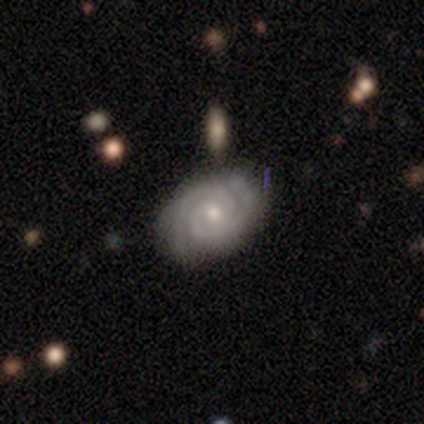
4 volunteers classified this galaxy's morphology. smooth-or-featured: featured or disk: 100% | smooth: 0% | star or artifact: 0%
  disk-edge-on: no: 100% | yes: 0%
    bar: no: 75% | weak: 25% | strong: 0%
    has-spiral-arms: yes: 100% | no: 0%
      spiral-winding: tight: 75% | medium: 25% | loose: 0%
      spiral-arm-count: 2: 100% | 1: 0% | 3: 0% | 4: 0% | more than 4: 0% | can't tell: 0%
    bulge-size: moderate: 75% | small: 25% | dominant: 0% | large: 0% | none: 0%
  merging: none: 100% | minor disturbance: 0% | major disturbance: 0% | merger: 0%